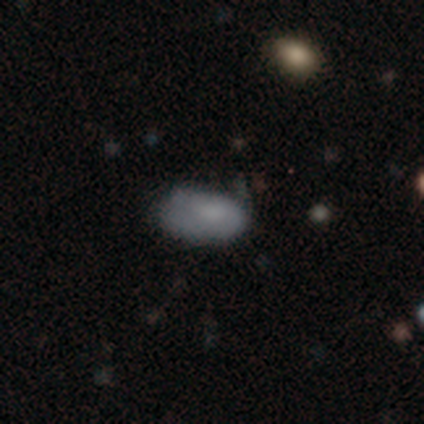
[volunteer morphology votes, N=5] A smooth galaxy with no disk features (80%) that is in between round and cigar-shaped (100%). Merging: none (100%).